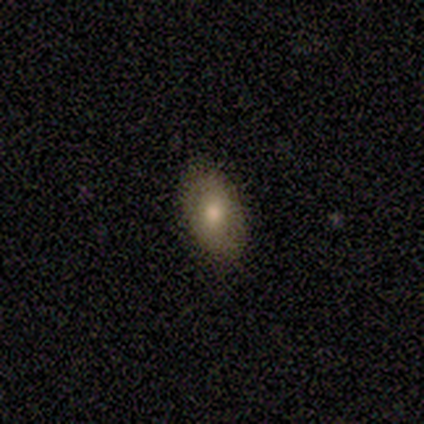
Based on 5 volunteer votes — Smooth or featured? 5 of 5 (100%) said smooth. How rounded? 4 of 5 (80%) said in between. Merging? 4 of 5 (80%) said none.